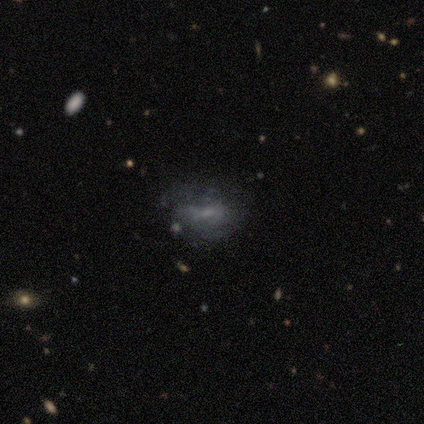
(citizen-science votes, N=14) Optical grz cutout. It shows a featured or disk galaxy (50%) with no bar (71%), no spiral arms (86%) and no central bulge (71%). Merging: none (50%).